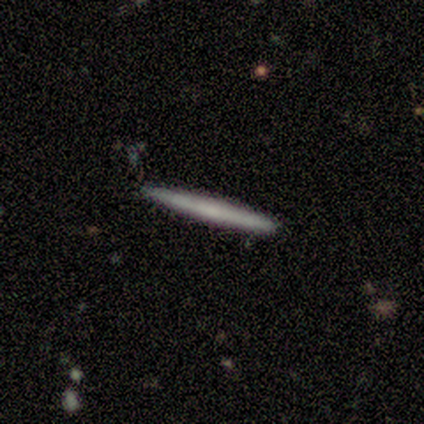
Volunteers were most divided on "smooth or featured": smooth: 80%, featured or disk: 20%, star or artifact: 0%. More confident: how rounded — cigar-shaped (100%); merging — none (100%).